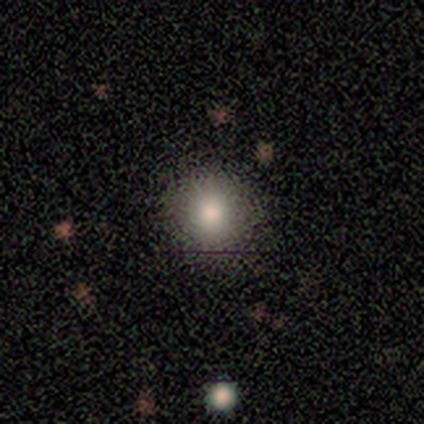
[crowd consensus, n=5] This is clearly a smooth galaxy (100%). How rounded: clearly round (100%). Merging: clearly none (100%).